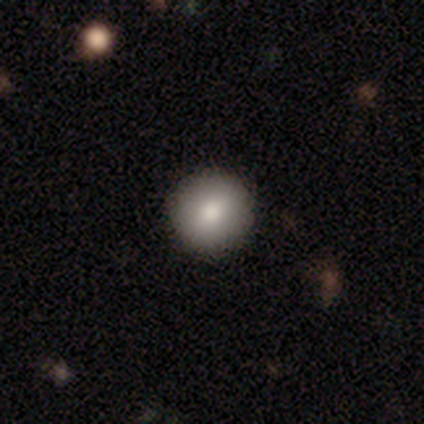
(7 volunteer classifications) Q: Smooth or featured?
A: smooth (86%); runner-up: featured or disk (14%)
Q: How rounded?
A: round (83%); runner-up: cigar-shaped (17%)
Q: Merging?
A: none (71%); runner-up: minor disturbance (14%)